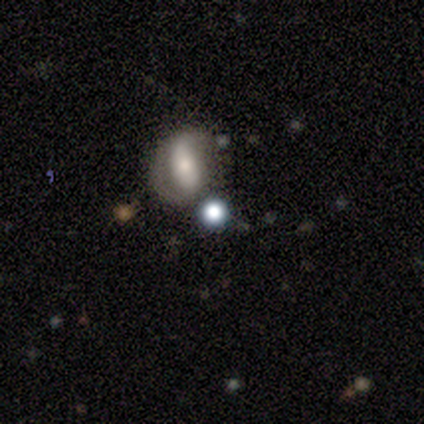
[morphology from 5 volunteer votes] Smooth or featured? smooth (60%)
How rounded? round (67%)
Merging? none (40%)